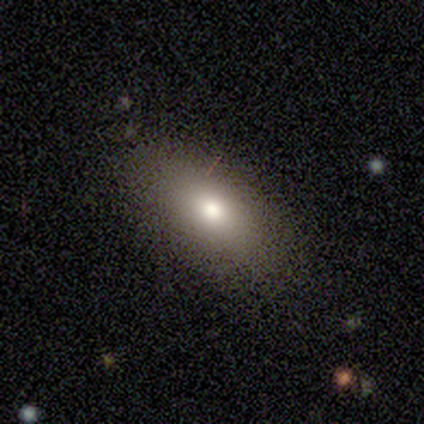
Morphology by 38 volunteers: Smooth or featured? smooth (76%)
How rounded? in between (93%)
Merging? none (76%)